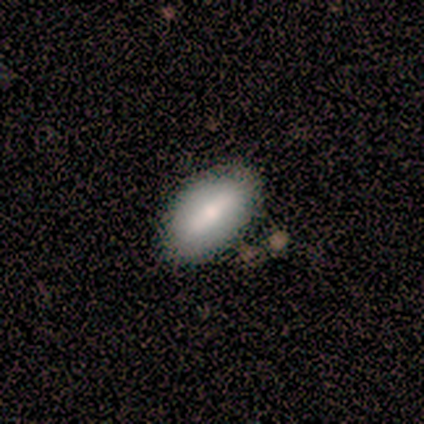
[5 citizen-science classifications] This is clearly a smooth galaxy (100%). How rounded: clearly in between (80%). Merging: likely none (60%).